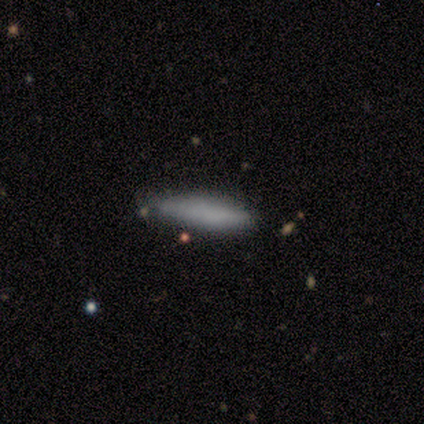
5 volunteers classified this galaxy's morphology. Smooth or featured? smooth (100%)
How rounded? cigar-shaped (80%)
Merging? none (60%)